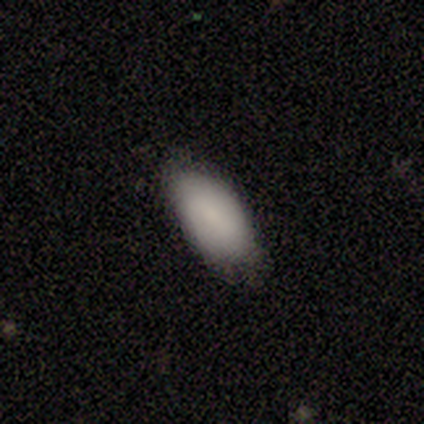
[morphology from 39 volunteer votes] A smooth galaxy with no disk features (85%) that is in between round and cigar-shaped (91%).

Vote fractions:
- Smooth or featured? smooth: 85% / featured or disk: 10% / star or artifact: 5%
- How rounded? in between: 91% / cigar-shaped: 9% / round: 0%
- Merging? none: 68% / minor disturbance: 30% / major disturbance: 3% / merger: 0%